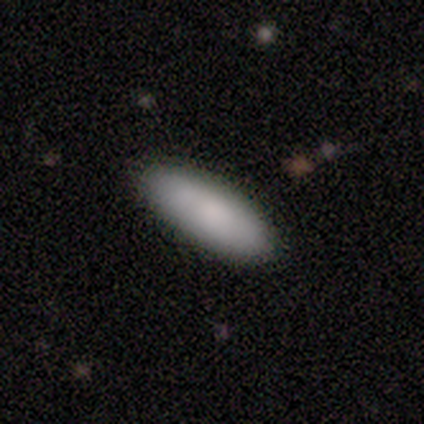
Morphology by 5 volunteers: Smooth or featured?
  - smooth: 100% *
  - featured or disk: 0%
  - star or artifact: 0%
How rounded?
  - cigar-shaped: 60% *
  - in between: 40%
  - round: 0%
Merging?
  - none: 100% *
  - minor disturbance: 0%
  - major disturbance: 0%
  - merger: 0%